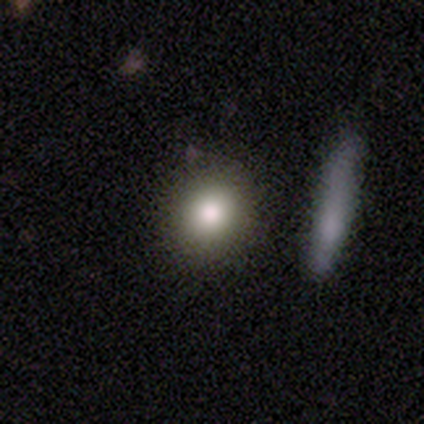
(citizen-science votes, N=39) This is clearly a smooth galaxy (87%). How rounded: likely round (65%). Merging: clearly none (95%).